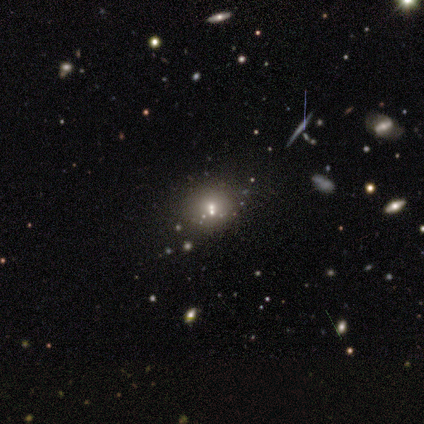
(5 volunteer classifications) Morphology: type=smooth (40%, tied with featured or disk); roundness=round (100%); merging=none (100%).